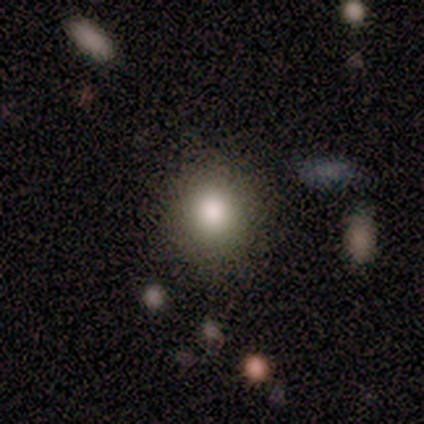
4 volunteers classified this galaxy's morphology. smooth-or-featured: smooth: 100% | featured or disk: 0% | star or artifact: 0%
  how-rounded: round: 100% | in between: 0% | cigar-shaped: 0%
  merging: none: 75% | minor disturbance: 25% | major disturbance: 0% | merger: 0%